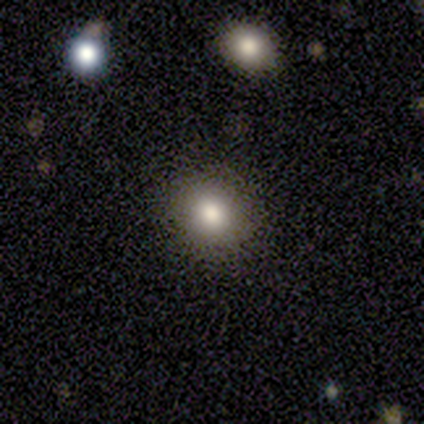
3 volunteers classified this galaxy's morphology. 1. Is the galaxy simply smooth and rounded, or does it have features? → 67% smooth, 33% featured or disk, 0% star or artifact.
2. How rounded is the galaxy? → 100% in between, 0% round, 0% cigar-shaped.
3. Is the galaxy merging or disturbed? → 100% none, 0% minor disturbance, 0% major disturbance, 0% merger.